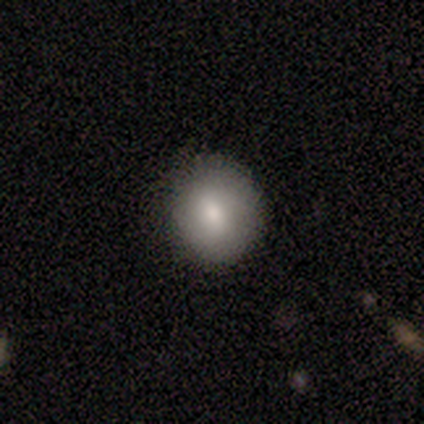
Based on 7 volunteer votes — smooth 86%, star or artifact 14%, featured or disk 0%. Down the decision tree: how rounded — round (67%); merging — none (100%).